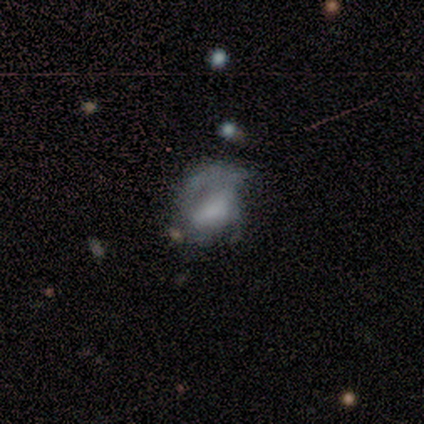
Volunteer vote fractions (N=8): smooth-or-featured: featured or disk: 62% | star or artifact: 25% | smooth: 12%
  disk-edge-on: no: 100% | yes: 0%
    bar: no: 60% | strong: 20% | weak: 20%
    has-spiral-arms: no: 80% | yes: 20%
    bulge-size: moderate: 40% (tied) | none: 40% (tied) | dominant: 20% | large: 0% | small: 0%
  merging: none: 67% | major disturbance: 33% | minor disturbance: 0% | merger: 0%